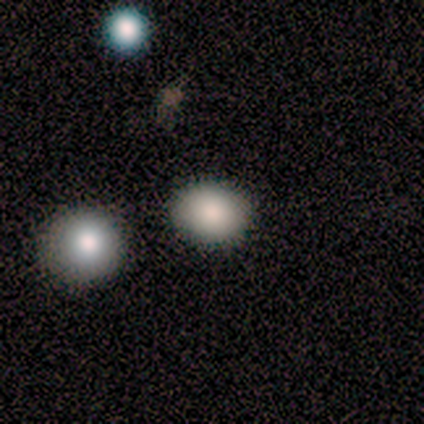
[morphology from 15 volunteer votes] Smooth or featured: smooth — 80% (star or artifact — 20%)
How rounded: round — 75% (in between — 25%)
Merging: none — 92% (merger — 8%)